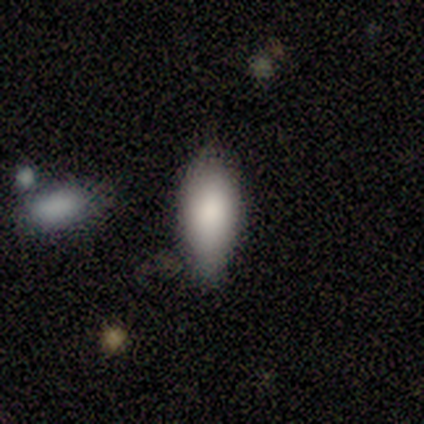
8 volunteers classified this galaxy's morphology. A smooth galaxy with no disk features (75%) that is in between round and cigar-shaped (83%). Merging: none (86%).